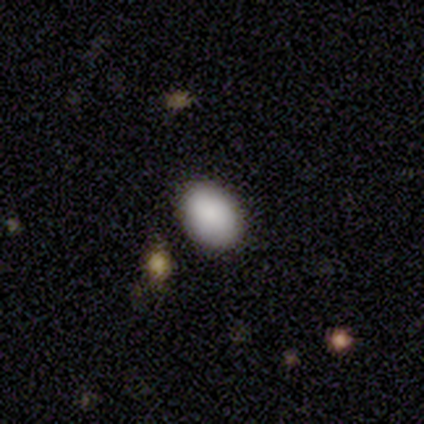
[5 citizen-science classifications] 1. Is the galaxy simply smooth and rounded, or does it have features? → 80% smooth, 20% star or artifact, 0% featured or disk.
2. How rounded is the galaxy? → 75% in between, 25% round, 0% cigar-shaped.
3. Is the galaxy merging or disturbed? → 100% none, 0% minor disturbance, 0% major disturbance, 0% merger.